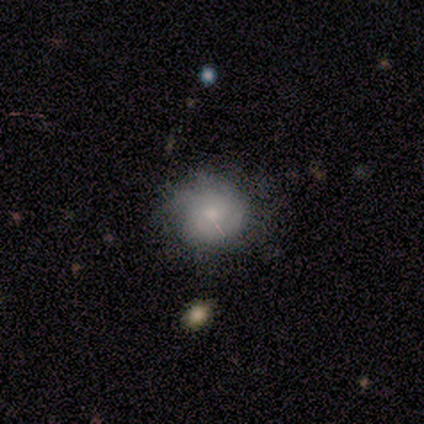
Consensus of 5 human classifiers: Overall: smooth (60%; featured or disk 40%). How rounded: round (67%; in between 33%). Merging: none (60%; minor disturbance 40%).